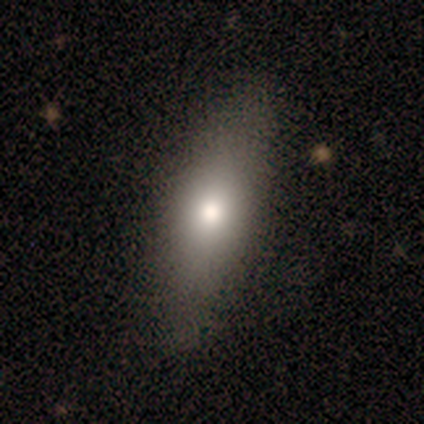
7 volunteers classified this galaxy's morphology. Smooth or featured?
  - featured or disk: 57% *
  - smooth: 43%
  - star or artifact: 0%
Edge-on disk?
  - yes: 50% * (tied)
  - no: 50% * (tied)
Edge-on bulge?
  - rounded: 100% *
  - boxy: 0%
  - none: 0%
Merging?
  - none: 57% *
  - minor disturbance: 43%
  - major disturbance: 0%
  - merger: 0%